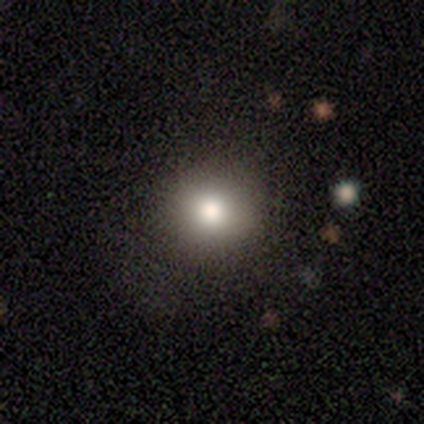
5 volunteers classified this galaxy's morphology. Smooth or featured? smooth (80%)
How rounded? round (100%)
Merging? none (100%)